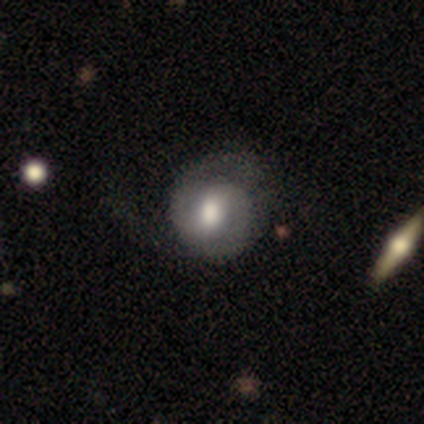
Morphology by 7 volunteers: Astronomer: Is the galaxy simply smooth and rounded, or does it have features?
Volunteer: featured or disk — 86%.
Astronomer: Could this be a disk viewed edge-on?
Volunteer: no — 100%.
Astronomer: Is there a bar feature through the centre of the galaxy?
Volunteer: strong — 33%, tied with weak and no at 33%.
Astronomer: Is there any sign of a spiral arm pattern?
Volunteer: yes — 100%.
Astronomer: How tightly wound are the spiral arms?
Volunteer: medium — 83%.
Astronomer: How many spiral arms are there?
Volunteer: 2 — 100%.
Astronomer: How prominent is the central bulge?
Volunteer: moderate — 67%.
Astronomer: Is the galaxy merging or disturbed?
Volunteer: none — 57%.